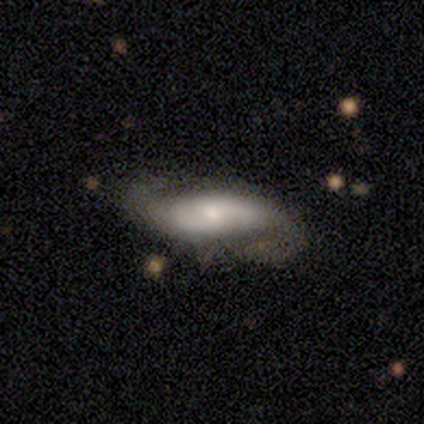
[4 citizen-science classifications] Smooth or featured? 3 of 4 (75%) said featured or disk. Edge-on disk? 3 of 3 (100%) said no. Bar? 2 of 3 (67%) said weak. Spiral arms? 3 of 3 (100%) said yes. Spiral winding? 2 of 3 (67%) said loose. Spiral arm count? 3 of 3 (100%) said 2. Bulge size? 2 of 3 (67%) said small. Merging? 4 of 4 (100%) said none.